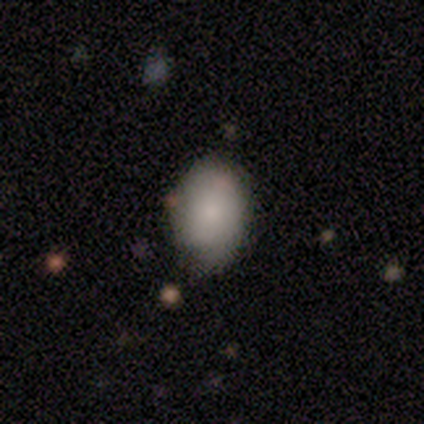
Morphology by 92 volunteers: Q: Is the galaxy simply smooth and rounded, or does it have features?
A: smooth — 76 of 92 (83%).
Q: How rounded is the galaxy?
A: in between — 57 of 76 (75%).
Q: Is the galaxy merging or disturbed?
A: none — 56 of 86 (65%).